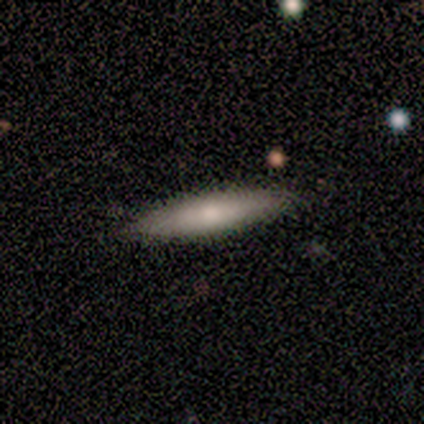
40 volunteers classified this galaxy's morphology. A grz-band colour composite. It shows a smooth galaxy with no disk features (55%) that is cigar-shaped (91%). Merging: none (84%).